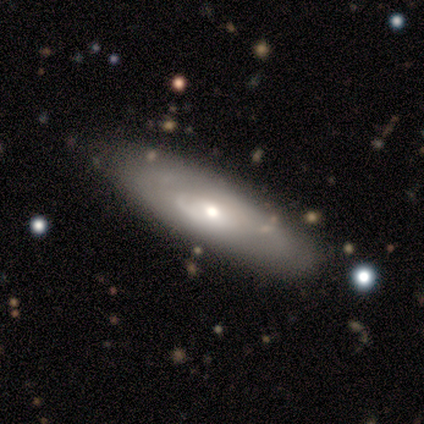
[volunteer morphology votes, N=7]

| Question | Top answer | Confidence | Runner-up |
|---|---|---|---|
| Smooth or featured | featured or disk | 100% | — |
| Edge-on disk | yes | 57% | no (43%) |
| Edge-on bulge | rounded | 100% | — |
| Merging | none | 71% | minor disturbance (14%) |